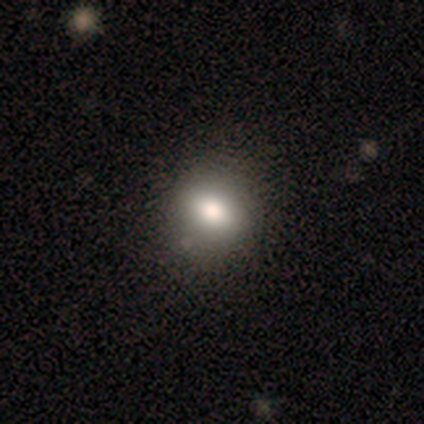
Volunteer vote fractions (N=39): smooth 72%, star or artifact 18%, featured or disk 10%. Down the decision tree: how rounded — round (61%); merging — none (91%).